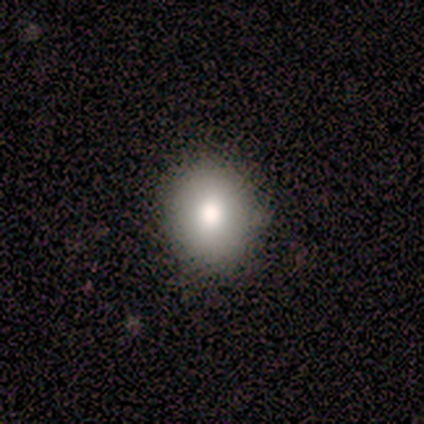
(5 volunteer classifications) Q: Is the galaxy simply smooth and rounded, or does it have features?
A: smooth — 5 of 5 (100%).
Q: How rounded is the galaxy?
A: in between — 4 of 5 (80%).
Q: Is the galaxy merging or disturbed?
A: none — 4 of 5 (80%).